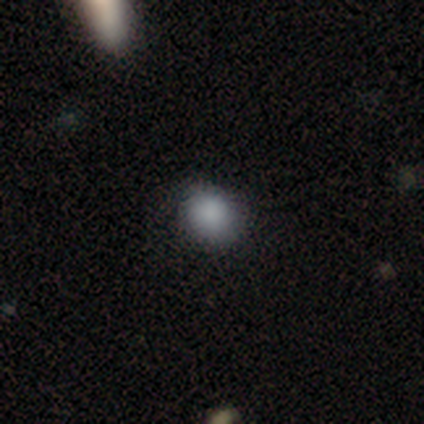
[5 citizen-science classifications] smooth-or-featured: smooth: 80% | featured or disk: 20% | star or artifact: 0%
  how-rounded: round: 75% | in between: 25% | cigar-shaped: 0%
  merging: none: 60% | minor disturbance: 40% | major disturbance: 0% | merger: 0%